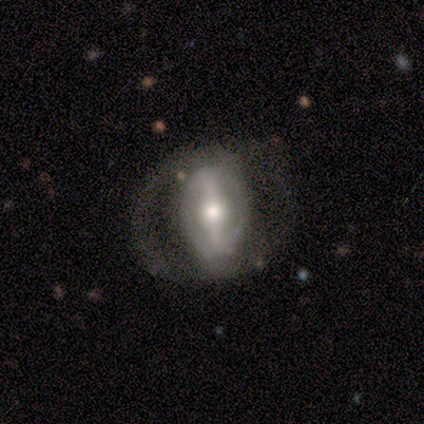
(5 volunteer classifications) Smooth or featured?
  - featured or disk: 100% *
  - smooth: 0%
  - star or artifact: 0%
Edge-on disk?
  - no: 80% *
  - yes: 20%
Bar?
  - strong: 100% *
  - weak: 0%
  - no: 0%
Spiral arms?
  - no: 75% *
  - yes: 25%
Bulge size?
  - moderate: 75% *
  - small: 25%
  - dominant: 0%
  - large: 0%
  - none: 0%
Merging?
  - major disturbance: 60% *
  - none: 20%
  - minor disturbance: 20%
  - merger: 0%